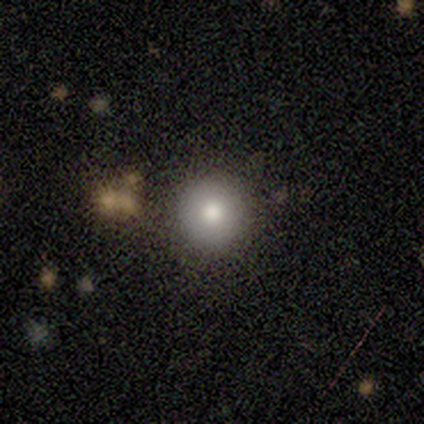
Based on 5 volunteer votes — smooth_or_featured: smooth (p=0.80) [alt: featured or disk p=0.20]
how_rounded: round (p=1.00)
merging: none (p=1.00)